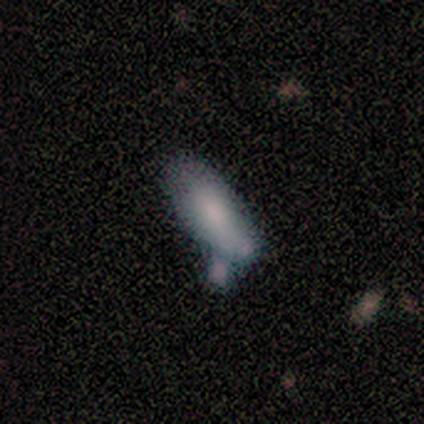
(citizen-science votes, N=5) Q: Smooth or featured?
A: smooth (100%)
Q: How rounded?
A: in between (100%)
Q: Merging?
A: minor disturbance (40%); tied with: merger (40%)